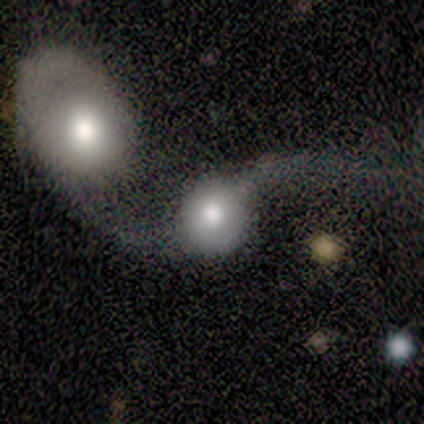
Smooth or featured?
  - smooth: 60% *
  - featured or disk: 40%
  - star or artifact: 0%
How rounded?
  - round: 100% *
  - in between: 0%
  - cigar-shaped: 0%
Merging?
  - merger: 60% *
  - none: 20%
  - major disturbance: 20%
  - minor disturbance: 0%